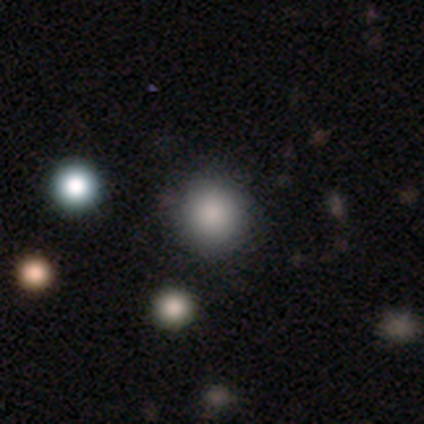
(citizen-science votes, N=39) smooth_or_featured: smooth (p=0.87) [alt: star or artifact p=0.10]
how_rounded: round (p=1.00)
merging: none (p=0.63) [alt: minor disturbance p=0.03]